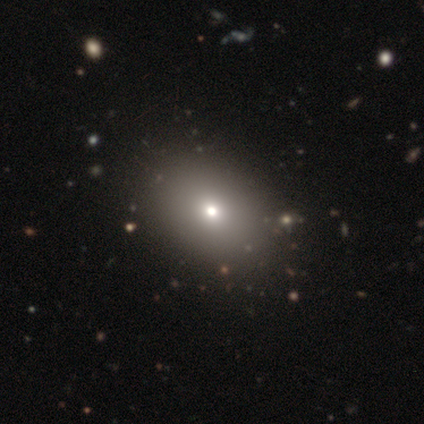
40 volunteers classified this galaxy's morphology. Q: Smooth or featured?
A: smooth (70%); runner-up: featured or disk (15%)
Q: How rounded?
A: in between (68%); runner-up: round (32%)
Q: Merging?
A: none (65%); runner-up: major disturbance (3%)